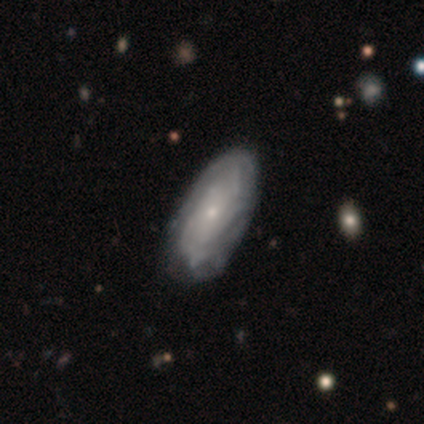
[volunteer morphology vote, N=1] Smooth or featured?
  - featured or disk: 100% *
  - smooth: 0%
  - star or artifact: 0%
Edge-on disk?
  - no: 100% *
  - yes: 0%
Bar?
  - no: 100% *
  - strong: 0%
  - weak: 0%
Spiral arms?
  - yes: 100% *
  - no: 0%
Spiral winding?
  - tight: 100% *
  - medium: 0%
  - loose: 0%
Spiral arm count?
  - can't tell: 100% *
  - 1: 0%
  - 2: 0%
  - 3: 0%
  - 4: 0%
  - more than 4: 0%
Bulge size?
  - dominant: 100% *
  - large: 0%
  - moderate: 0%
  - small: 0%
  - none: 0%
Merging?
  - minor disturbance: 100% *
  - none: 0%
  - major disturbance: 0%
  - merger: 0%